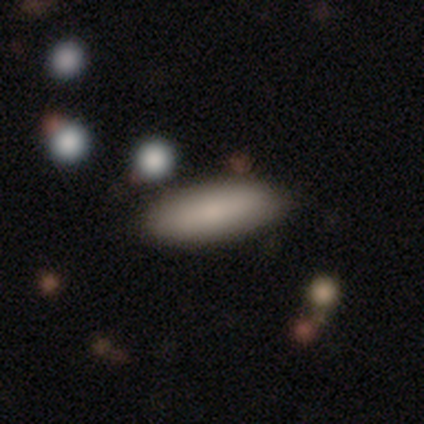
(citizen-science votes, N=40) Q: Smooth or featured?
A: smooth (78%); runner-up: featured or disk (15%)
Q: How rounded?
A: in between (58%); runner-up: cigar-shaped (42%)
Q: Merging?
A: none (95%); runner-up: minor disturbance (5%)